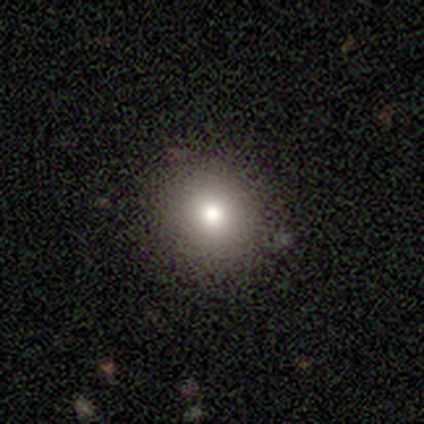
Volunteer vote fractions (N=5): Smooth or featured? 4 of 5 (80%) said smooth. How rounded? 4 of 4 (100%) said round. Merging? 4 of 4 (100%) said none.